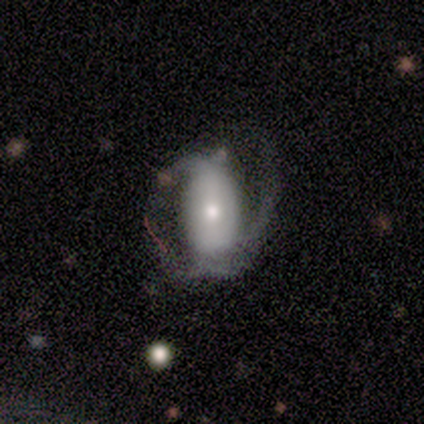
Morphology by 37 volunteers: Smooth or featured? featured or disk (65%)
Edge-on disk? no (92%)
Bar? strong (45%)
Spiral arms? yes (77%)
Spiral winding? medium (41%)
Spiral arm count? 2 (76%)
Bulge size? moderate (50%)
Merging? major disturbance (56%)